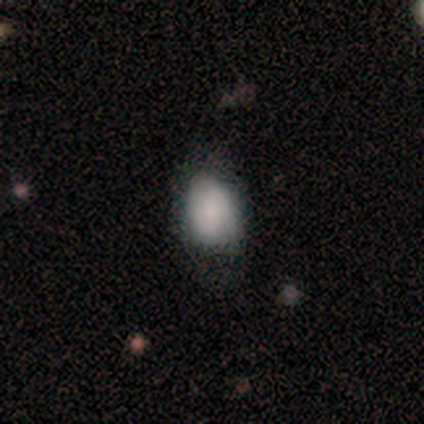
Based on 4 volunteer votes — This appears to be a smooth galaxy with no disk features (50%) that is round (50%, tied with in between). Merging: minor disturbance (67%).